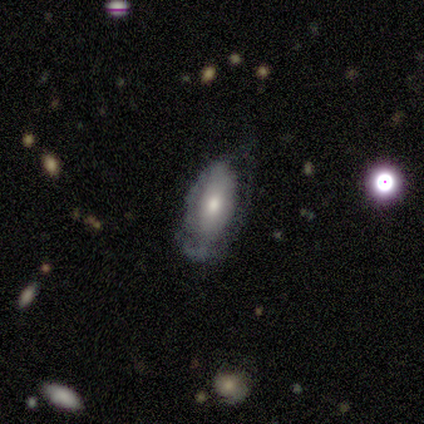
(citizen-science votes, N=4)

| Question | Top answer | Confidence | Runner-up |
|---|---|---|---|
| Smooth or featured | smooth | 50% | tied: featured or disk (50%) |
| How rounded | in between | 100% | — |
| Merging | none | 100% | — |